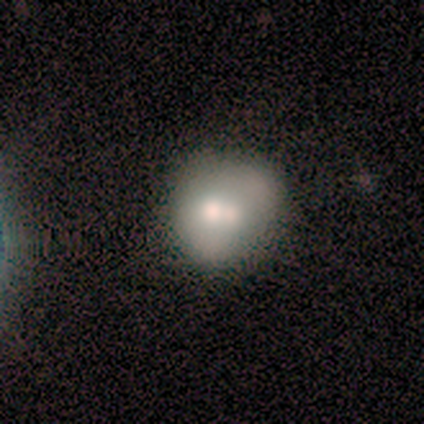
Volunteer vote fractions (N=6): Smooth or featured? smooth (67%)
How rounded? round (75%)
Merging? none (50%, tied with merger)